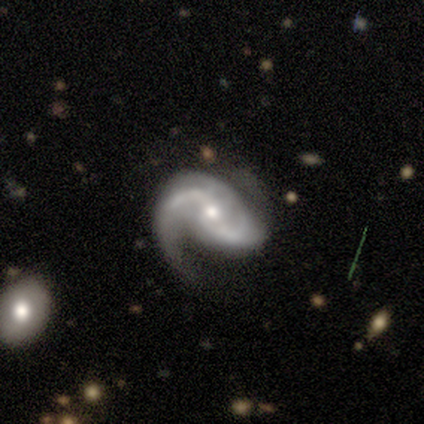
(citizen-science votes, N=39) A featured or disk galaxy (97%) with a weak bar (55%), 2 (89%) medium (57%) spiral arms (97%) and a moderate central bulge (47%, tied with small).

Vote fractions:
- Smooth or featured? featured or disk: 97% / smooth: 3% / star or artifact: 0%
- Edge-on disk? no: 100% / yes: 0%
- Bar? weak: 55% / no: 29% / strong: 16%
- Spiral arms? yes: 97% / no: 3%
- Spiral winding? medium: 57% / loose: 35% / tight: 8%
- Spiral arm count? 2: 89% / can't tell: 5% / 1: 3% / 3: 3% / 4: 0% / more than 4: 0%
- Bulge size? moderate: 47% (tied) / small: 47% (tied) / large: 5% / dominant: 0% / none: 0%
- Merging? none: 67% / minor disturbance: 15% / major disturbance: 15% / merger: 3%